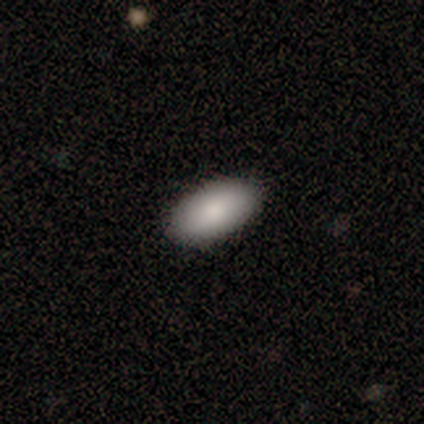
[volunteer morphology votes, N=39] This appears to be a smooth galaxy with no disk features (87%) that is in between round and cigar-shaped (97%). Merging: none (97%).